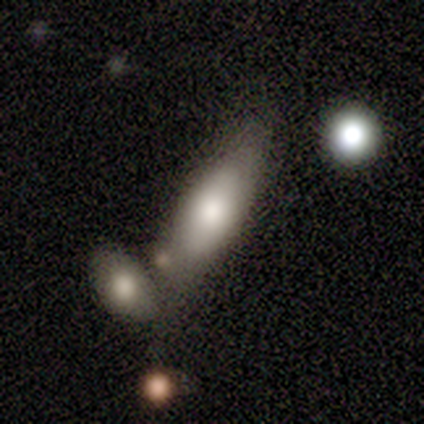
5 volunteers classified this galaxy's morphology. smooth_or_featured: smooth (p=0.80) [alt: featured or disk p=0.20]
how_rounded: cigar-shaped (p=0.75) [alt: in between p=0.25]
merging: merger (p=0.60) [alt: none p=0.40]